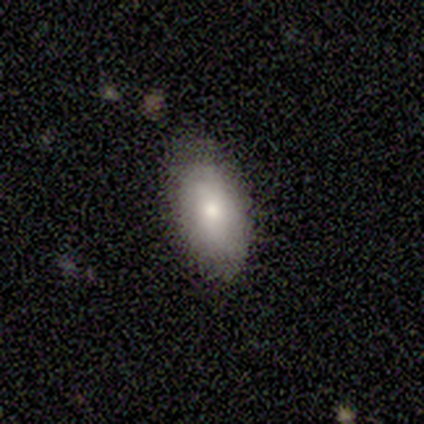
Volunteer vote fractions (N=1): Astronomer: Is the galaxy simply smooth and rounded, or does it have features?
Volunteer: smooth — 100%.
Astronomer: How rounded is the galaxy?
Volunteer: in between — 100%.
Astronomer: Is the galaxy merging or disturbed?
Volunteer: minor disturbance — 100%.